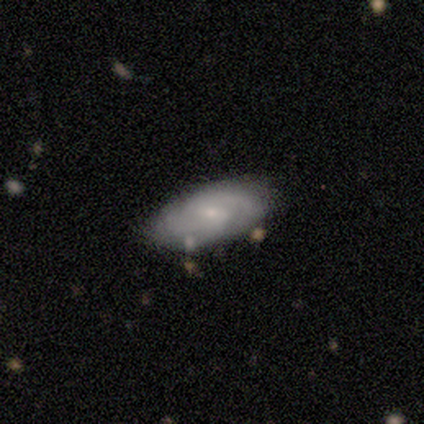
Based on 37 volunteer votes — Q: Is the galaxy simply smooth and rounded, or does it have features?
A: featured or disk — 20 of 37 (54%).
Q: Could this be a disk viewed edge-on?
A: no — 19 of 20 (95%).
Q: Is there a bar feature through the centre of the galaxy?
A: weak — 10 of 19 (53%).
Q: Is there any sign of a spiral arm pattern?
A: yes — 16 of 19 (84%).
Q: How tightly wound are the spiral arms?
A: tight — 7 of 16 (44%).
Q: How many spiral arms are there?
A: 2 — 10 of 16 (62%).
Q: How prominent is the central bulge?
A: small — 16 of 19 (84%).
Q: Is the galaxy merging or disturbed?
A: none — 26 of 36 (72%).